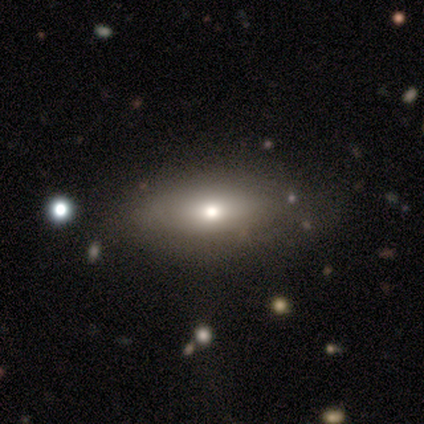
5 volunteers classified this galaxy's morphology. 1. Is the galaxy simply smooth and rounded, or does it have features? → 80% smooth, 20% featured or disk, 0% star or artifact.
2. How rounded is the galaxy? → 75% in between, 25% cigar-shaped, 0% round.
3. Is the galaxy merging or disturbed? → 40% none, 20% minor disturbance, 20% major disturbance, 20% merger.